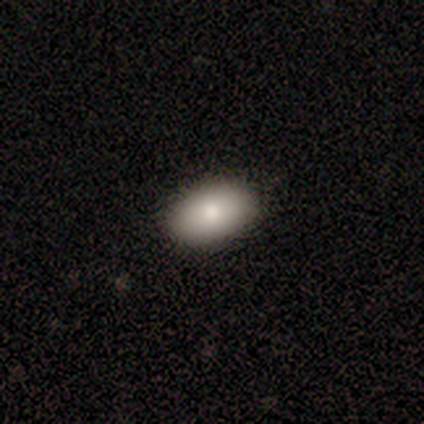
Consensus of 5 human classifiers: Volunteers were most divided on "smooth or featured": smooth: 80%, star or artifact: 20%, featured or disk: 0%. More confident: how rounded — in between (100%); merging — none (100%).